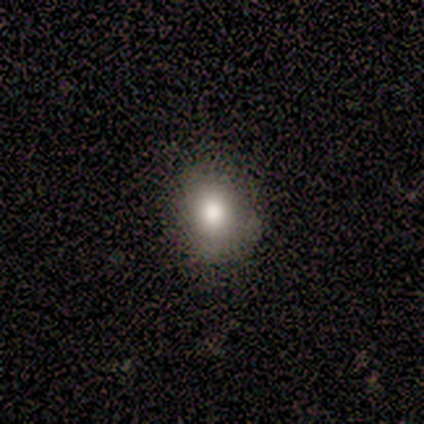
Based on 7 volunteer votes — smooth_or_featured: smooth (p=0.86) [alt: featured or disk p=0.14]
how_rounded: in between (p=0.67) [alt: round p=0.33]
merging: none (p=0.71) [alt: minor disturbance p=0.29]